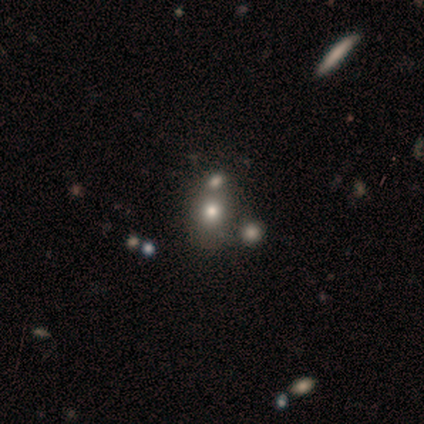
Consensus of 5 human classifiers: This appears to be a smooth galaxy with no disk features (80%) that is round (50%, tied with in between). Merging: none (50%, tied with merger).